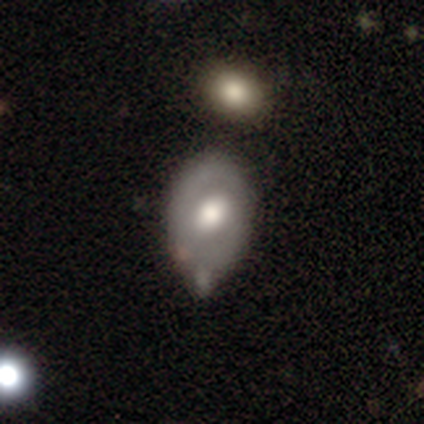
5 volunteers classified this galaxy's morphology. Smooth or featured?
  - featured or disk: 80% *
  - smooth: 20%
  - star or artifact: 0%
Edge-on disk?
  - no: 100% *
  - yes: 0%
Bar?
  - weak: 50% * (tied)
  - no: 50% * (tied)
  - strong: 0%
Spiral arms?
  - no: 100% *
  - yes: 0%
Bulge size?
  - moderate: 50% *
  - dominant: 25%
  - large: 25%
  - small: 0%
  - none: 0%
Merging?
  - none: 40% * (tied)
  - minor disturbance: 40% * (tied)
  - major disturbance: 20%
  - merger: 0%